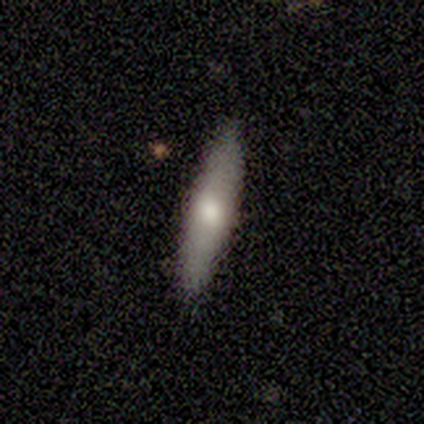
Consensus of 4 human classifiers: A smooth galaxy with no disk features (50%, tied with featured or disk) that is round (50%, tied with cigar-shaped). Merging: none (75%).